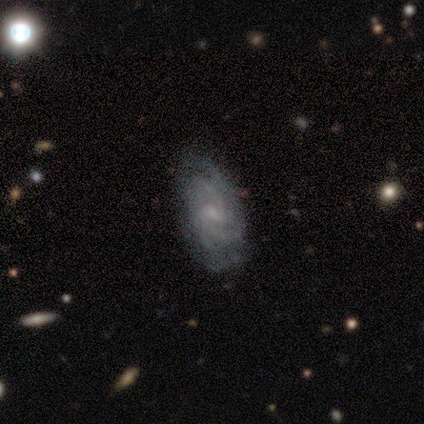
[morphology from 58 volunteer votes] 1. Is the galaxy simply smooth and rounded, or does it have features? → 79% featured or disk, 10% smooth, 10% star or artifact.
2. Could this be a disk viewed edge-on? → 100% no, 0% yes.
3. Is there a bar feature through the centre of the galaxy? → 63% weak, 37% no, 0% strong.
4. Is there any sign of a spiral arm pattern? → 98% yes, 2% no.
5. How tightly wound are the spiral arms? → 58% tight, 36% medium, 7% loose.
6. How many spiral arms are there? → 38% 2, 27% can't tell, 18% 4, 16% 3, 2% more than 4, 0% 1.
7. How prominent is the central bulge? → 76% small, 15% none, 9% moderate, 0% dominant, 0% large.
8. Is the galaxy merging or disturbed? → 79% none, 21% minor disturbance, 0% major disturbance, 0% merger.